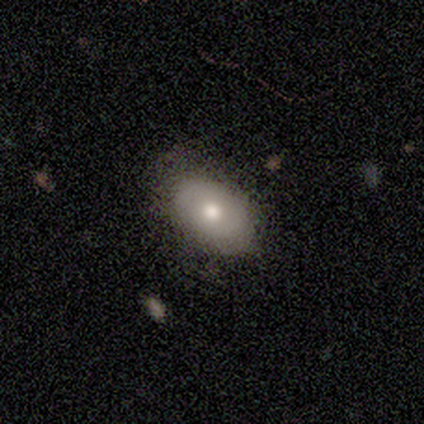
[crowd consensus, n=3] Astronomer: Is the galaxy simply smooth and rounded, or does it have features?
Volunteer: smooth — 67%.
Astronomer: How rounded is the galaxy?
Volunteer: round — 50%, tied with in between at 50%.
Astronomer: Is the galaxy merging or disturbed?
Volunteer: none — 67%.